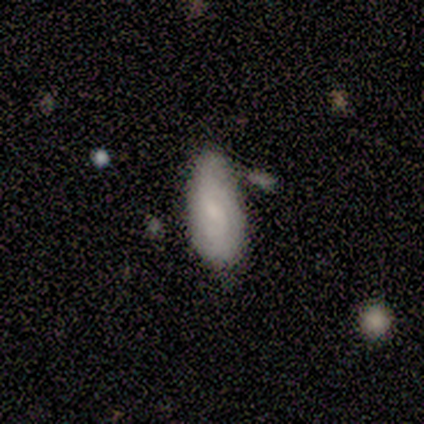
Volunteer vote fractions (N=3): smooth-or-featured: smooth: 67% | featured or disk: 33% | star or artifact: 0%
  how-rounded: in between: 100% | round: 0% | cigar-shaped: 0%
  merging: none: 100% | minor disturbance: 0% | major disturbance: 0% | merger: 0%